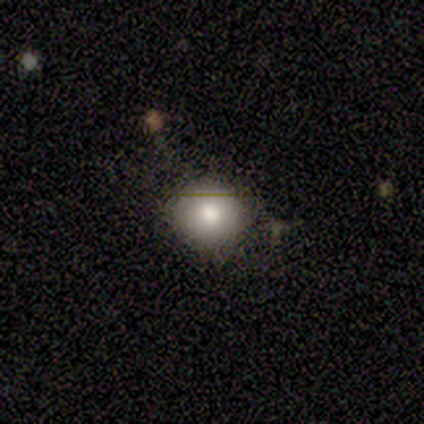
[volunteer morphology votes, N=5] type=smooth (80%); roundness=round (75%); merging=none (80%).